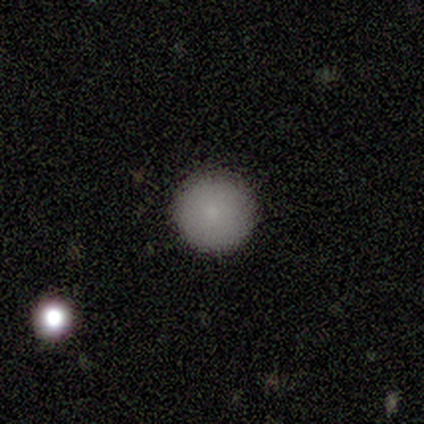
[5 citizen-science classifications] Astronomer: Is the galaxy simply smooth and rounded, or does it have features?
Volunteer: smooth — 80%.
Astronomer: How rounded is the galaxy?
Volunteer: round — 100%.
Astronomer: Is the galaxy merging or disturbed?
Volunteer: none — 100%.